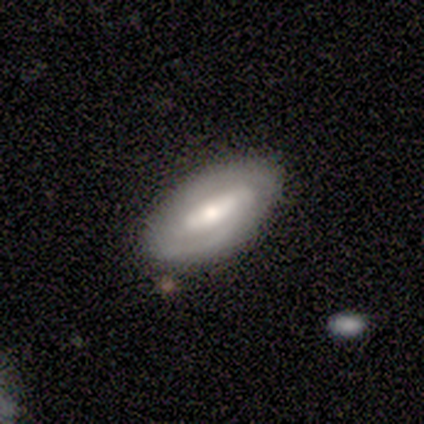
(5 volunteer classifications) Smooth or featured?
  - smooth: 40% * (tied)
  - featured or disk: 40% * (tied)
  - star or artifact: 20%
How rounded?
  - in between: 100% *
  - round: 0%
  - cigar-shaped: 0%
Merging?
  - none: 75% *
  - minor disturbance: 25%
  - major disturbance: 0%
  - merger: 0%